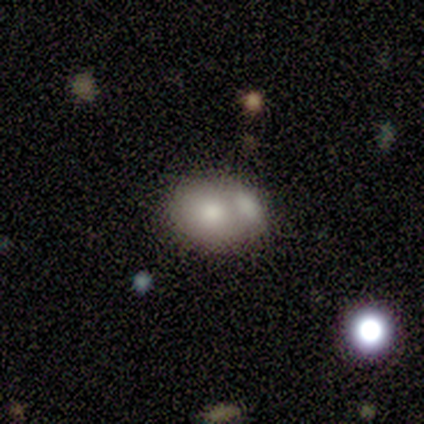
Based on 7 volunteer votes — A smooth galaxy with no disk features (57%) that is round (50%, tied with in between).

Vote fractions:
- Smooth or featured? smooth: 57% / star or artifact: 43% / featured or disk: 0%
- How rounded? round: 50% (tied) / in between: 50% (tied) / cigar-shaped: 0%
- Merging? merger: 50% / none: 25% / minor disturbance: 25% / major disturbance: 0%